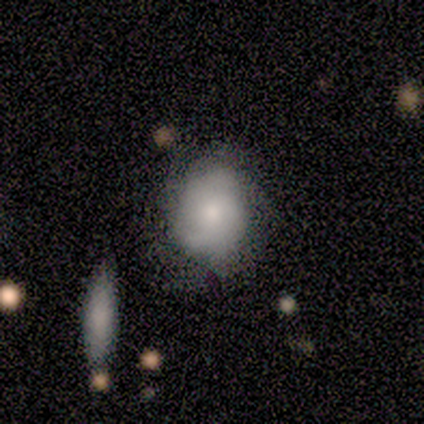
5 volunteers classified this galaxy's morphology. Smooth or featured? 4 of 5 (80%) said smooth. How rounded? 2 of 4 (50%, tied with in between) said round. Merging? 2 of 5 (40%, tied with minor disturbance) said none.